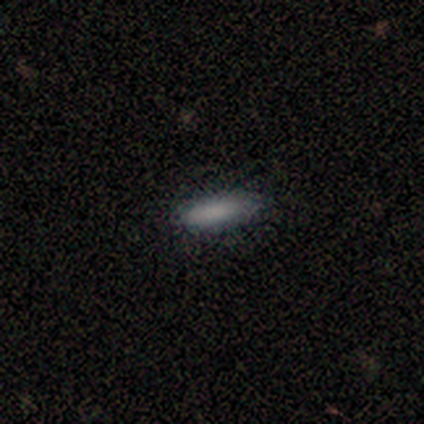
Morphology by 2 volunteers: Overall: smooth (100%). How rounded: in between (50%, tied with cigar-shaped). Merging: none (50%, tied with minor disturbance).